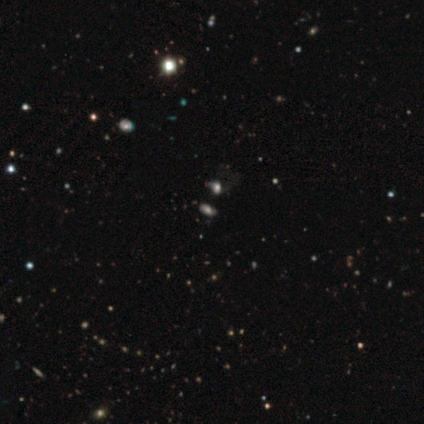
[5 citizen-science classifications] Morphology: type=featured or disk (40%, tied with star or artifact); edge-on=no (100%); bar=no (100%); spiral arms=yes (50%, tied with no); winding=medium (100%); arm count=can't tell (100%); bulge=moderate (100%); merging=minor disturbance (67%).